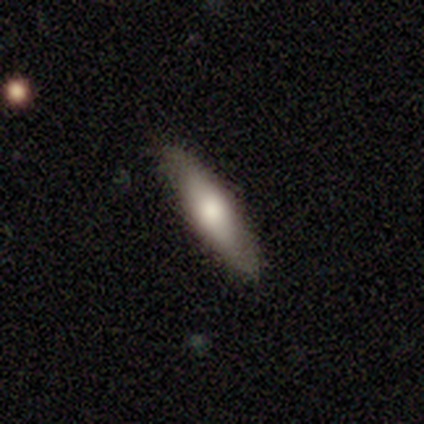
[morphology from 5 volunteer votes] smooth-or-featured: smooth: 60% | featured or disk: 40% | star or artifact: 0%
  how-rounded: cigar-shaped: 100% | round: 0% | in between: 0%
  merging: none: 100% | minor disturbance: 0% | major disturbance: 0% | merger: 0%